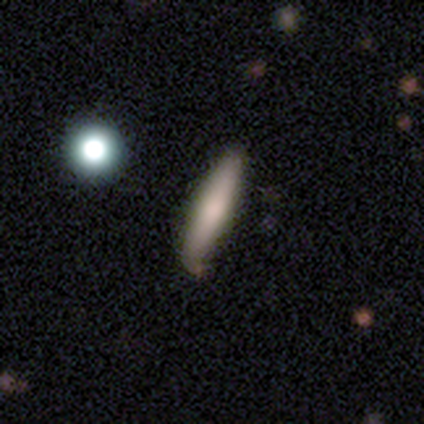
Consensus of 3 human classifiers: Morphology: type=smooth (67%); roundness=cigar-shaped (100%); merging=none (100%).